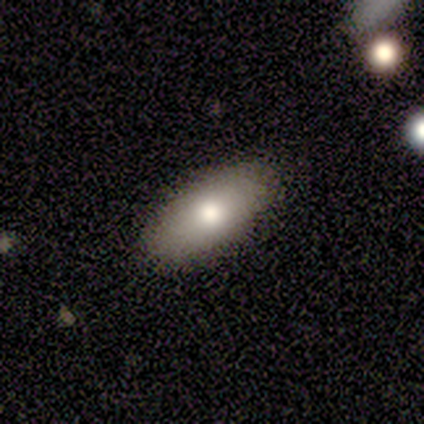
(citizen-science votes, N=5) Smooth or featured? 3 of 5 (60%) said smooth. How rounded? 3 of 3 (100%) said in between. Merging? 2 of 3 (67%) said none.